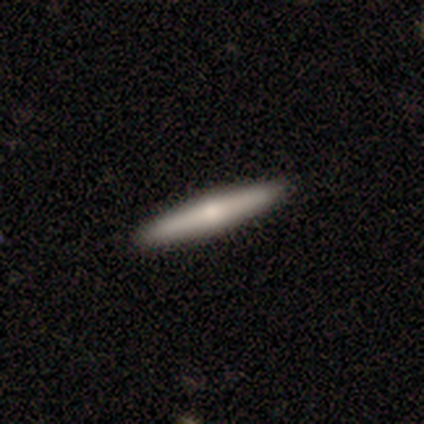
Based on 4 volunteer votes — Smooth or featured? 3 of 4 (75%) said smooth. How rounded? 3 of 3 (100%) said cigar-shaped. Merging? 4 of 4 (100%) said none.